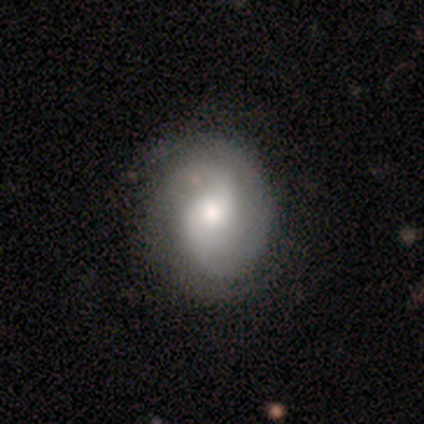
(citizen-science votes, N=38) featured or disk 84%, smooth 11%, star or artifact 5%. Down the decision tree: edge-on disk — no (100%); bar — no (53%); spiral arms — yes (94%); spiral arm count — 2 (97%); spiral winding — tight (40%, tied with medium); bulge size — moderate (78%); merging — none (53%).